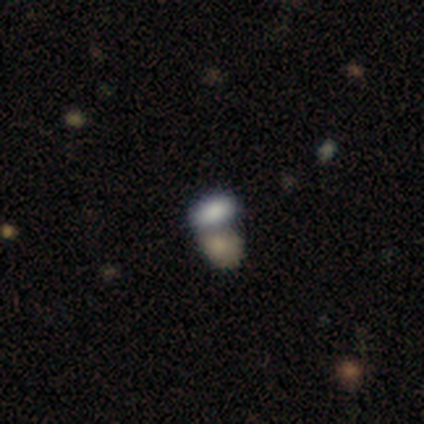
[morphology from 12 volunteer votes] type=smooth (67%); roundness=in between (100%); merging=none (44%).